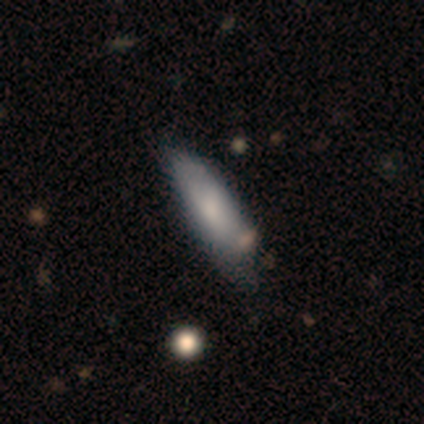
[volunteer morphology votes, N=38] A smooth galaxy with no disk features (66%) that is cigar-shaped (56%).

Vote fractions:
- Smooth or featured? smooth: 66% / featured or disk: 32% / star or artifact: 3%
- How rounded? cigar-shaped: 56% / in between: 44% / round: 0%
- Merging? none: 59% / minor disturbance: 19% / major disturbance: 16% / merger: 5%